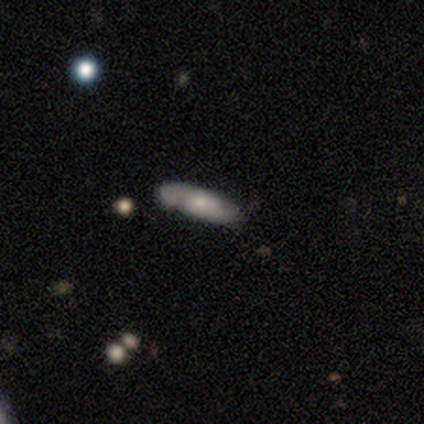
This is likely a smooth galaxy (60%). How rounded: likely cigar-shaped (67%). Merging: clearly none (80%).